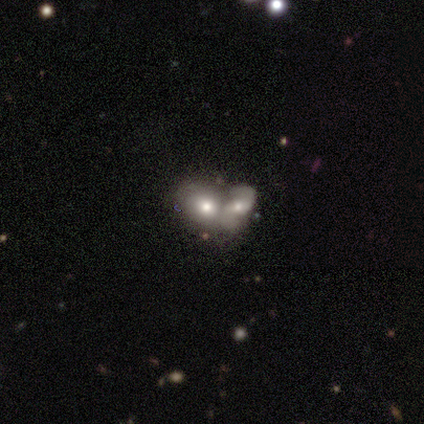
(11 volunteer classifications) Smooth or featured? smooth (73%)
How rounded? in between (88%)
Merging? merger (90%)